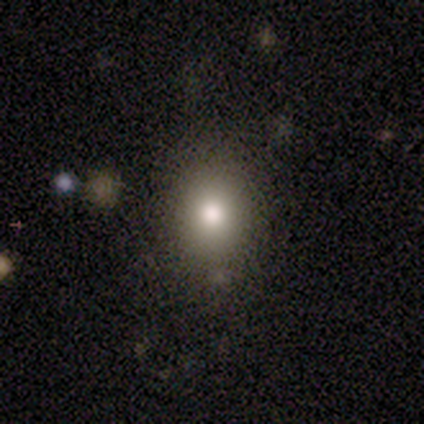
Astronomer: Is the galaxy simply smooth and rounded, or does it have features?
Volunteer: smooth — 60% (runner-up: star or artifact, 40%).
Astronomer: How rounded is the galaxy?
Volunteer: round — 100%.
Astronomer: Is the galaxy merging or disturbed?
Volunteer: none — 67%.